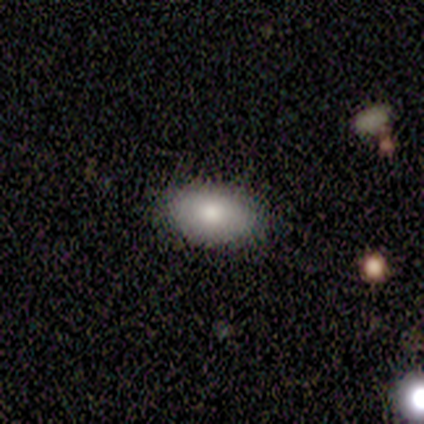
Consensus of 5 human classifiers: A smooth galaxy with no disk features (60%) that is in between round and cigar-shaped (67%). Merging: none (100%).